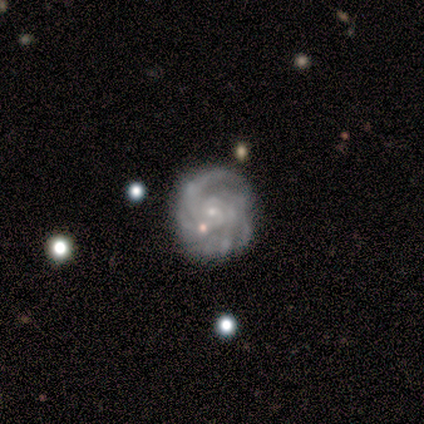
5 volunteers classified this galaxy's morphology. Overall: featured or disk (100%). Edge-on disk: no (100%). Bar: no (100%). Spiral arms: yes (100%). Spiral arm count: can't tell (60%; 2 20%). Spiral winding: tight (80%). Bulge size: small (80%). Merging: none (60%; minor disturbance 40%).